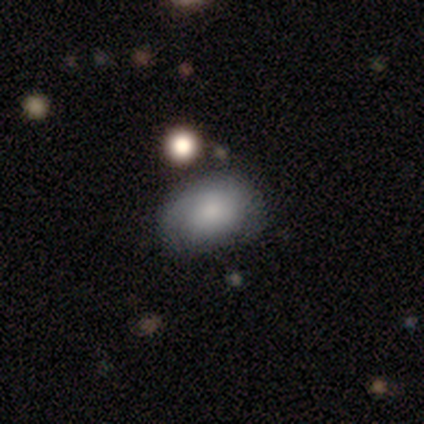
Smooth or featured: smooth — 76% (featured or disk — 17%)
How rounded: in between — 74% (round — 26%)
Merging: none — 70% (minor disturbance — 26%)